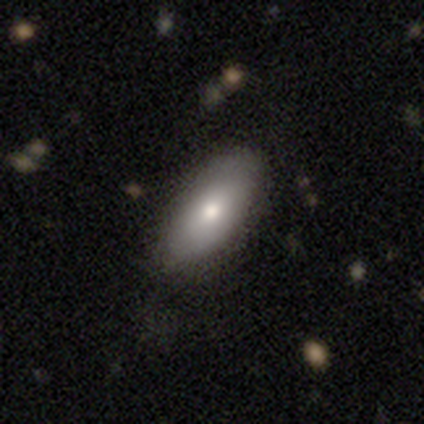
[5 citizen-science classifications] A smooth galaxy with no disk features (80%) that is in between round and cigar-shaped (100%). Merging: none (100%).